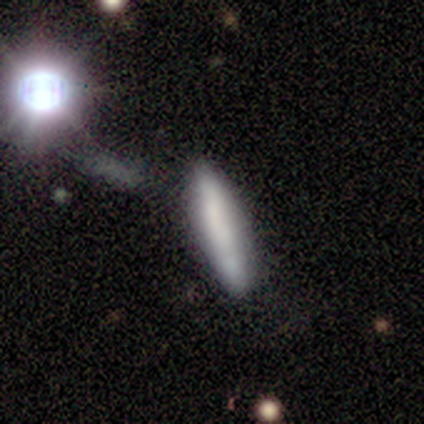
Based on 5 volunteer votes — Smooth or featured: smooth — 80% (featured or disk — 20%)
How rounded: cigar-shaped — 100%
Merging: none — 80% (merger — 20%)